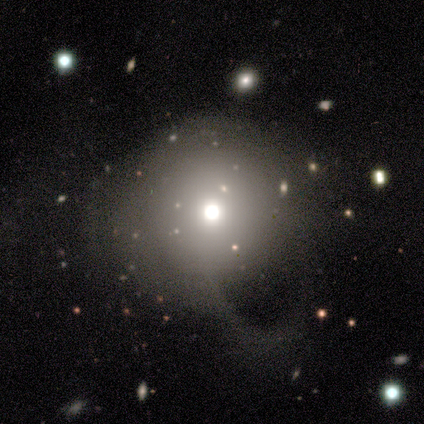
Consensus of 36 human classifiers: Smooth or featured: smooth — 69% (featured or disk — 19%)
How rounded: round — 92% (in between — 8%)
Merging: major disturbance — 50% (none — 28%)